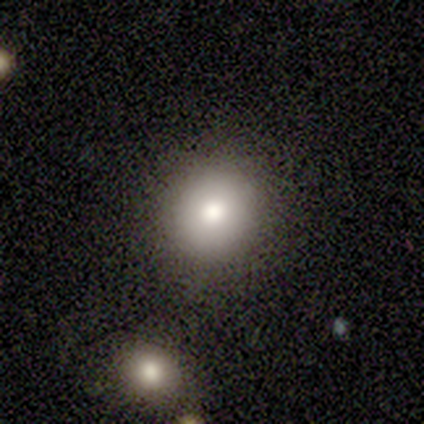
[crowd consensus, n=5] Smooth or featured? 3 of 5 (60%) said smooth. How rounded? 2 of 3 (67%) said round. Merging? 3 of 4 (75%) said none.